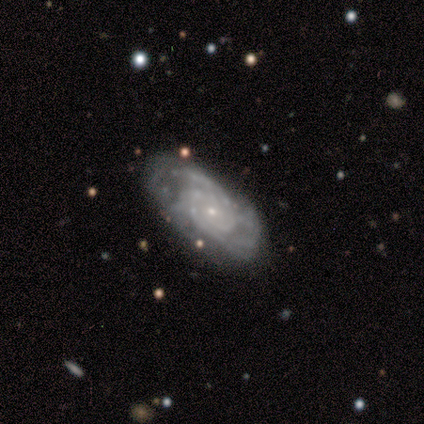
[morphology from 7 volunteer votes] featured or disk 100%, smooth 0%, star or artifact 0%. Down the decision tree: edge-on disk — no (100%); bar — no (100%); spiral arms — yes (100%); spiral arm count — 2 (43%, tied with can't tell); spiral winding — tight (100%); bulge size — small (100%); merging — none (71%).